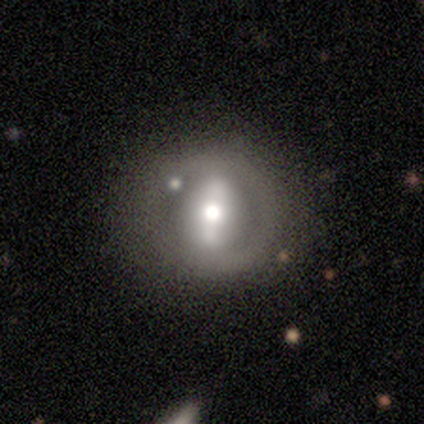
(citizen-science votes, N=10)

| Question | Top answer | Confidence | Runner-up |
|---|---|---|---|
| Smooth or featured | featured or disk | 80% | smooth (10%) |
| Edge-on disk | no | 100% | — |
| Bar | strong | 75% | weak (25%) |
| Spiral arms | no | 100% | — |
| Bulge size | moderate | 88% | large (12%) |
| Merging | none | 78% | minor disturbance (11%) |